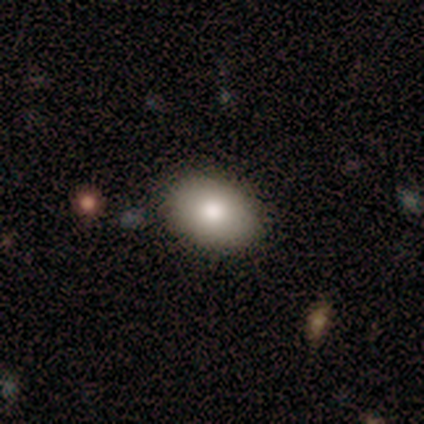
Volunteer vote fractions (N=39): Smooth or featured? 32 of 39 (82%) said smooth. How rounded? 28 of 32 (88%) said in between. Merging? 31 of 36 (86%) said none.